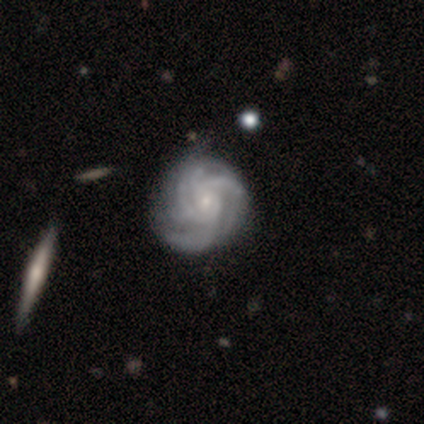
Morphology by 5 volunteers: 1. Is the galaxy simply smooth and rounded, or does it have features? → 80% featured or disk, 20% star or artifact, 0% smooth.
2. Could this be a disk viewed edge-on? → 100% no, 0% yes.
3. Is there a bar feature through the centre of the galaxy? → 75% no, 25% weak, 0% strong.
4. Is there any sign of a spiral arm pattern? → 100% yes, 0% no.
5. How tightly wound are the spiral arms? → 75% tight, 25% medium, 0% loose.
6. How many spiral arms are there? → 25% 3 (tied), 25% 4 (tied), 25% more than 4 (tied), 25% can't tell (tied), 0% 1, 0% 2.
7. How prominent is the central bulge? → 100% small, 0% dominant, 0% large, 0% moderate, 0% none.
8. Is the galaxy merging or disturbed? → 50% none (tied), 50% minor disturbance (tied), 0% major disturbance, 0% merger.